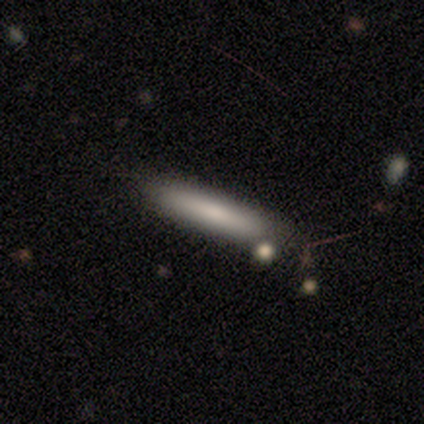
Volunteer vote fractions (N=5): smooth_or_featured: smooth (p=1.00)
how_rounded: cigar-shaped (p=1.00)
merging: none (p=1.00)